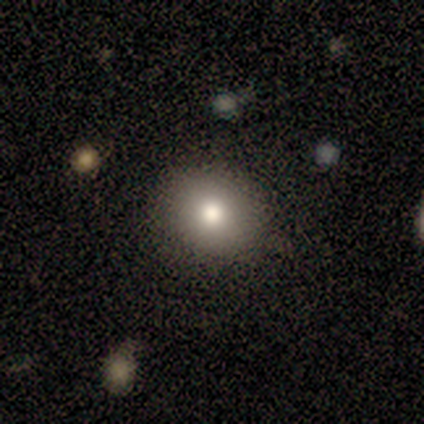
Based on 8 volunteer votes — Q: Smooth or featured?
A: smooth (100%)
Q: How rounded?
A: in between (62%); runner-up: round (38%)
Q: Merging?
A: none (100%)